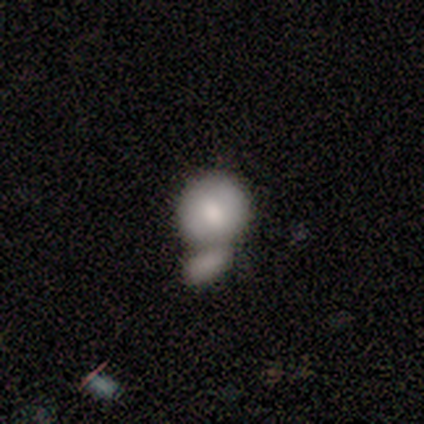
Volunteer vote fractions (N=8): smooth-or-featured: smooth: 88% | star or artifact: 12% | featured or disk: 0%
  how-rounded: round: 57% | in between: 43% | cigar-shaped: 0%
  merging: merger: 57% | none: 29% | major disturbance: 14% | minor disturbance: 0%